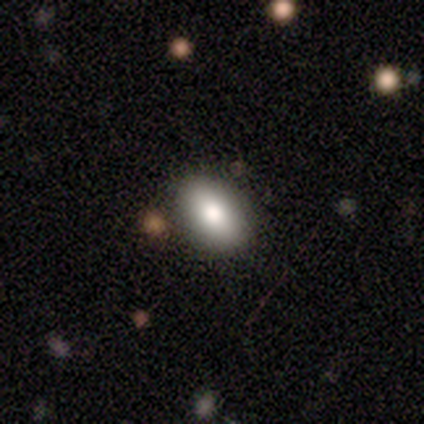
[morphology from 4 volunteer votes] Q: Smooth or featured?
A: smooth (100%)
Q: How rounded?
A: in between (100%)
Q: Merging?
A: none (100%)